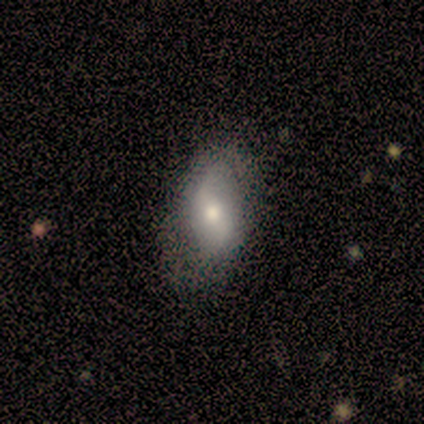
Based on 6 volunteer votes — Smooth or featured?
  - featured or disk: 67% *
  - smooth: 17%
  - star or artifact: 17%
Edge-on disk?
  - no: 100% *
  - yes: 0%
Bar?
  - no: 75% *
  - weak: 25%
  - strong: 0%
Spiral arms?
  - yes: 75% *
  - no: 25%
Spiral winding?
  - loose: 67% *
  - medium: 33%
  - tight: 0%
Spiral arm count?
  - 2: 100% *
  - 1: 0%
  - 3: 0%
  - 4: 0%
  - more than 4: 0%
  - can't tell: 0%
Bulge size?
  - moderate: 100% *
  - dominant: 0%
  - large: 0%
  - small: 0%
  - none: 0%
Merging?
  - none: 100% *
  - minor disturbance: 0%
  - major disturbance: 0%
  - merger: 0%